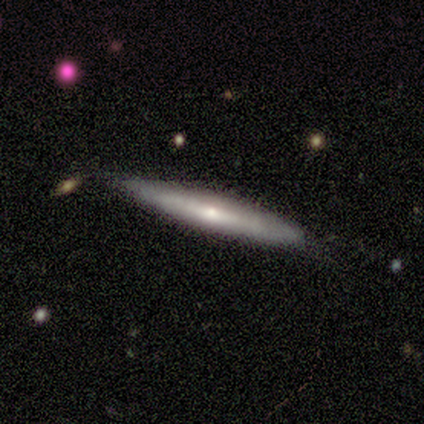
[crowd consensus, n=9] smooth_or_featured: smooth (p=0.67) [alt: featured or disk p=0.33]
how_rounded: cigar-shaped (p=0.83) [alt: in between p=0.17]
merging: none (p=1.00)